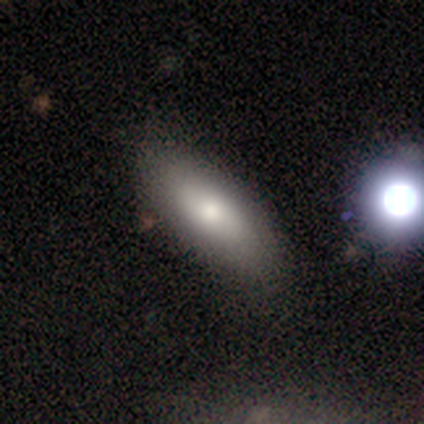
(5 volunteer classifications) Q: Smooth or featured?
A: smooth (80%); runner-up: featured or disk (20%)
Q: How rounded?
A: in between (100%)
Q: Merging?
A: none (80%); runner-up: merger (20%)